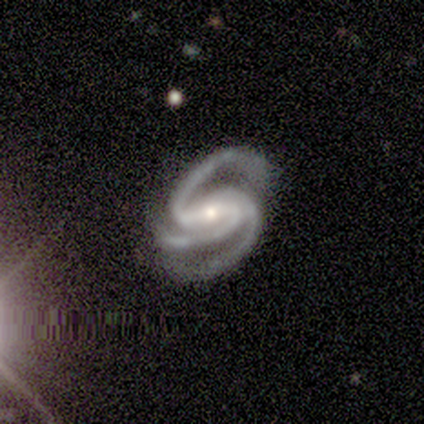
Smooth or featured: featured or disk — 100%
Edge-on disk: no — 100%
Bar: strong — 60% (weak — 40%)
Spiral arms: yes — 100%
Spiral winding: medium — 60% (tight — 40%)
Spiral arm count: 3 — 60% (2 — 20%)
Bulge size: moderate — 80% (small — 20%)
Merging: minor disturbance — 60% (none — 40%)